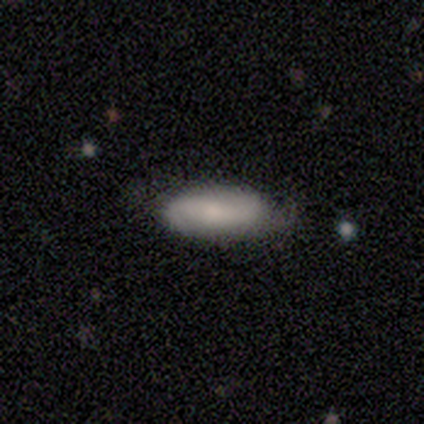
This appears to be a smooth galaxy with no disk features (75%) that is in between round and cigar-shaped (100%). Merging: minor disturbance (75%).